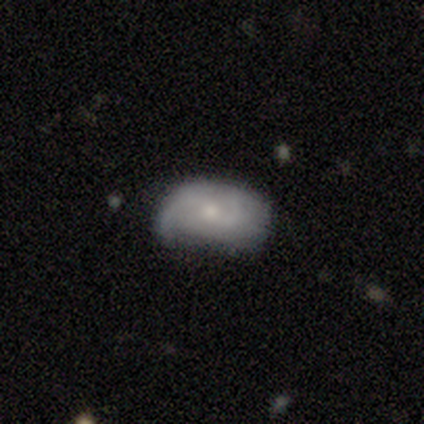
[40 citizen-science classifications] A smooth galaxy with no disk features (50%, tied with featured or disk) that is in between round and cigar-shaped (95%).

Vote fractions:
- Smooth or featured? smooth: 50% (tied) / featured or disk: 50% (tied) / star or artifact: 0%
- How rounded? in between: 95% / cigar-shaped: 5% / round: 0%
- Merging? none: 48% / minor disturbance: 38% / major disturbance: 10% / merger: 5%